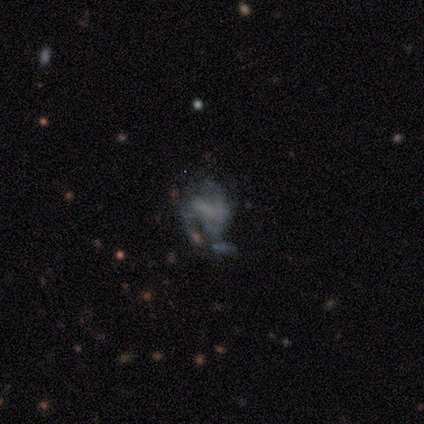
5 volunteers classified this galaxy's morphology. A featured or disk galaxy (80%) with a weak bar (75%), no spiral arms (75%) and no central bulge (50%).

Vote fractions:
- Smooth or featured? featured or disk: 80% / smooth: 20% / star or artifact: 0%
- Edge-on disk? no: 100% / yes: 0%
- Bar? weak: 75% / no: 25% / strong: 0%
- Spiral arms? no: 75% / yes: 25%
- Bulge size? none: 50% / large: 25% / small: 25% / dominant: 0% / moderate: 0%
- Merging? major disturbance: 100% / none: 0% / minor disturbance: 0% / merger: 0%